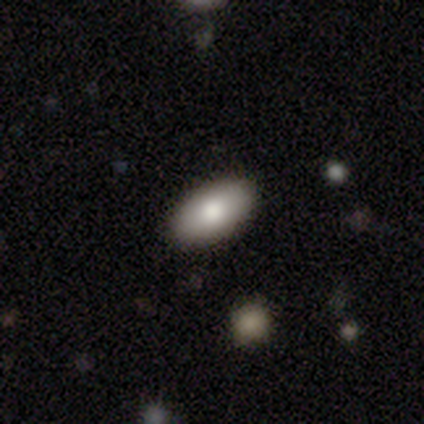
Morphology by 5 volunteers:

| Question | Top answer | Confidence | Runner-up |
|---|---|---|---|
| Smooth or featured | smooth | 100% | — |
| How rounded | in between | 80% | round (20%) |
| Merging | none | 100% | — |